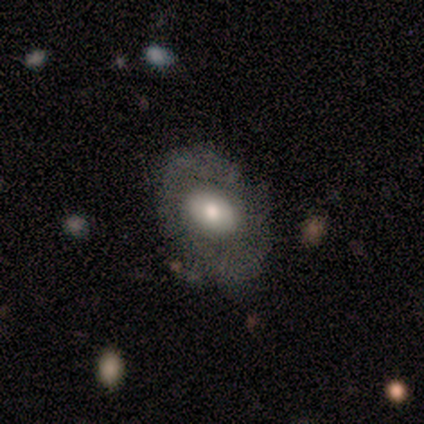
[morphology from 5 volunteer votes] Smooth or featured?
  - featured or disk: 80% *
  - smooth: 20%
  - star or artifact: 0%
Edge-on disk?
  - no: 100% *
  - yes: 0%
Bar?
  - no: 75% *
  - weak: 25%
  - strong: 0%
Spiral arms?
  - no: 100% *
  - yes: 0%
Bulge size?
  - moderate: 100% *
  - dominant: 0%
  - large: 0%
  - small: 0%
  - none: 0%
Merging?
  - none: 40% * (tied)
  - minor disturbance: 40% * (tied)
  - major disturbance: 20%
  - merger: 0%